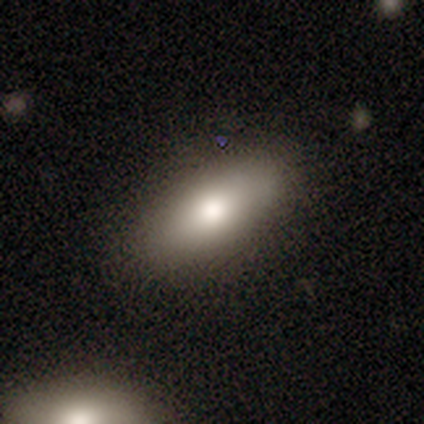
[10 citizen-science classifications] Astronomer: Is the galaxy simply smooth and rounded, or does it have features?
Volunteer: smooth — 90%.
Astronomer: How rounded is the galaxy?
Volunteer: in between — 78%.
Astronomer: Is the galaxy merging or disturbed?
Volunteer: none — 70%.